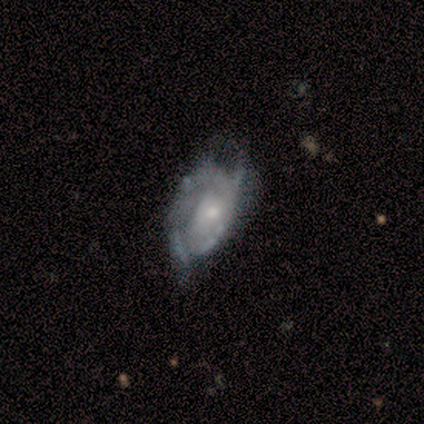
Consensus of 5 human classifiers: A featured or disk galaxy (100%) with no bar (100%), 2 (75%) tight (75%) spiral arms (80%) and a moderate central bulge (60%).

Vote fractions:
- Smooth or featured? featured or disk: 100% / smooth: 0% / star or artifact: 0%
- Edge-on disk? no: 100% / yes: 0%
- Bar? no: 100% / strong: 0% / weak: 0%
- Spiral arms? yes: 80% / no: 20%
- Spiral winding? tight: 75% / loose: 25% / medium: 0%
- Spiral arm count? 2: 75% / can't tell: 25% / 1: 0% / 3: 0% / 4: 0% / more than 4: 0%
- Bulge size? moderate: 60% / small: 40% / dominant: 0% / large: 0% / none: 0%
- Merging? major disturbance: 60% / none: 40% / minor disturbance: 0% / merger: 0%